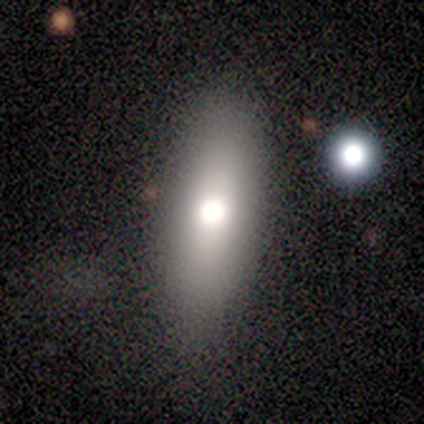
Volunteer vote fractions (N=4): This appears to be a smooth galaxy with no disk features (100%) that is in between round and cigar-shaped (75%). Merging: none (100%).